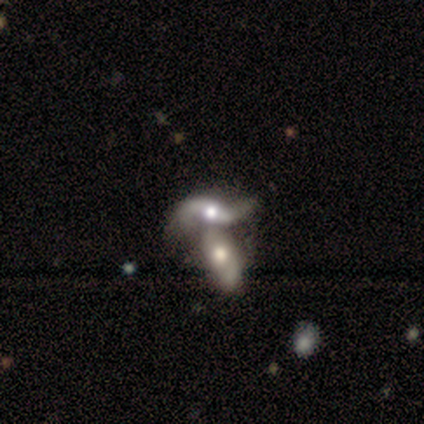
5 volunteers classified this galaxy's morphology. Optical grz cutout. It shows a featured or disk galaxy (80%) with no bar (100%), 2 (100%) loose (100%) spiral arms (67%) and a moderate central bulge (67%). Merging: merger (100%).